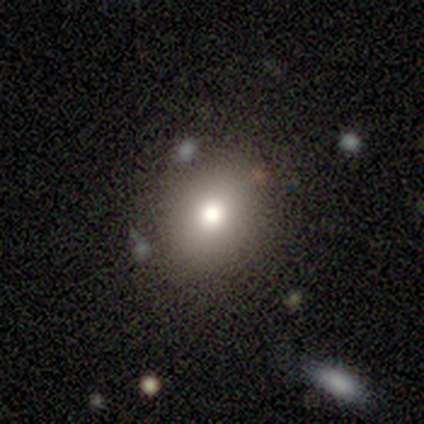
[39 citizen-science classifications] Smooth or featured? 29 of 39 (74%) said smooth. How rounded? 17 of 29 (59%) said round. Merging? 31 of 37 (84%) said none.